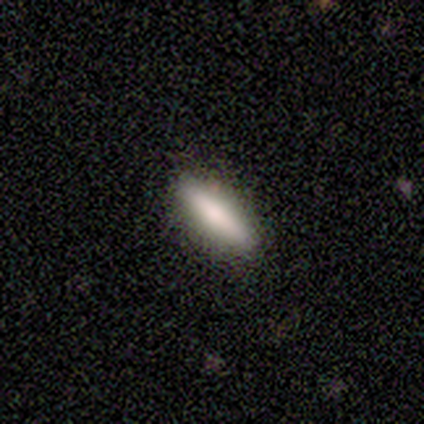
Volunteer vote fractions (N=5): smooth_or_featured: smooth (p=1.00)
how_rounded: in between (p=0.60) [alt: cigar-shaped p=0.40]
merging: none (p=1.00)